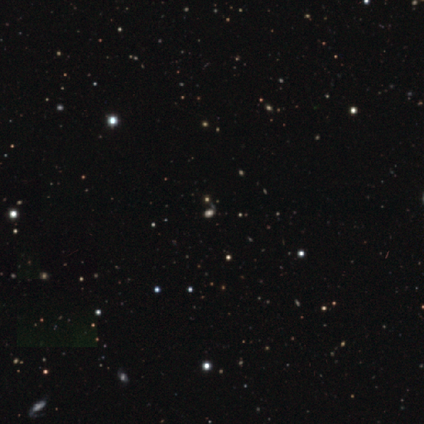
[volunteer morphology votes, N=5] smooth_or_featured: smooth (p=0.40) [tied with: star or artifact p=0.40]
how_rounded: in between (p=1.00)
merging: none (p=0.67) [alt: major disturbance p=0.33]